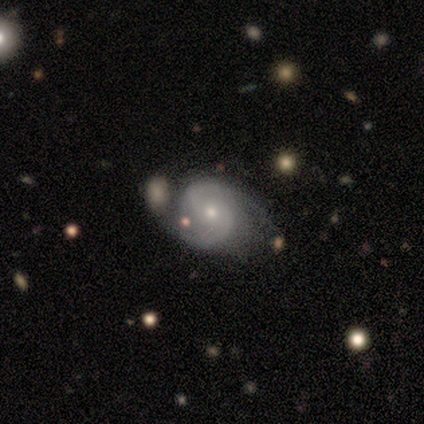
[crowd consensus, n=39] Smooth or featured? featured or disk (85%)
Edge-on disk? no (97%)
Bar? no (78%)
Spiral arms? yes (97%)
Spiral winding? medium (52%)
Spiral arm count? 2 (90%)
Bulge size? small (50%)
Merging? merger (34%)